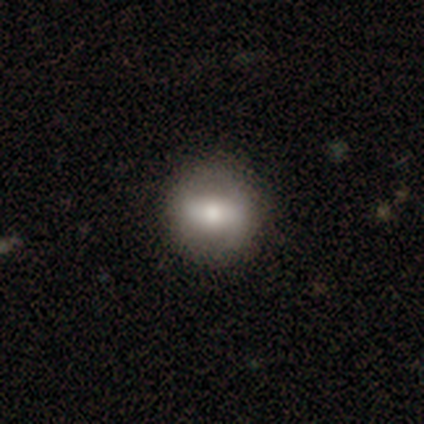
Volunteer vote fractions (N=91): Smooth or featured? smooth (55%)
How rounded? round (86%)
Merging? none (89%)